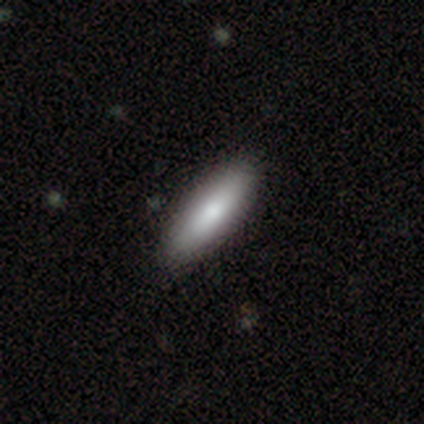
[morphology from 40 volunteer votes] smooth 80%, featured or disk 15%, star or artifact 5%. Down the decision tree: how rounded — in between (53%); merging — none (63%).